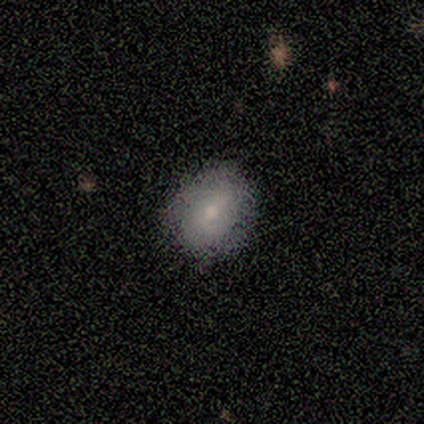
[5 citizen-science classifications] Smooth or featured: smooth — 100%
How rounded: in between — 60% (round — 40%)
Merging: none — 80% (minor disturbance — 20%)